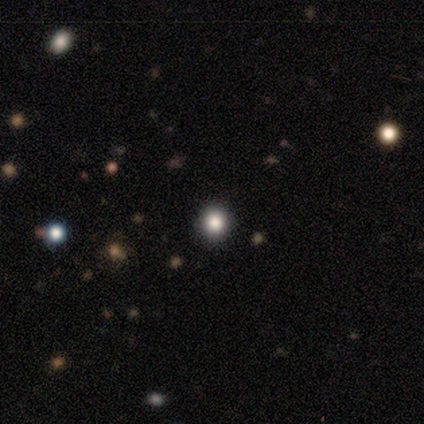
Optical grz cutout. It shows a smooth galaxy with no disk features (80%) that is round (100%). Merging: none (100%).